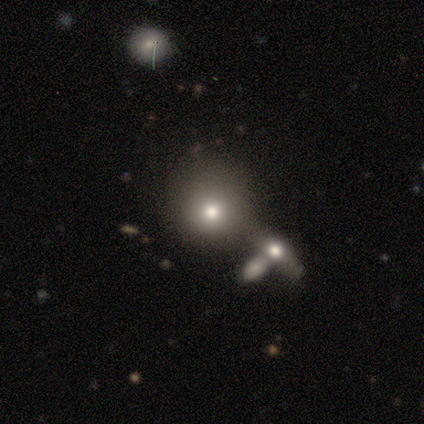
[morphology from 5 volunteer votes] Q: Smooth or featured?
A: smooth (60%); runner-up: featured or disk (20%)
Q: How rounded?
A: round (100%)
Q: Merging?
A: none (100%)